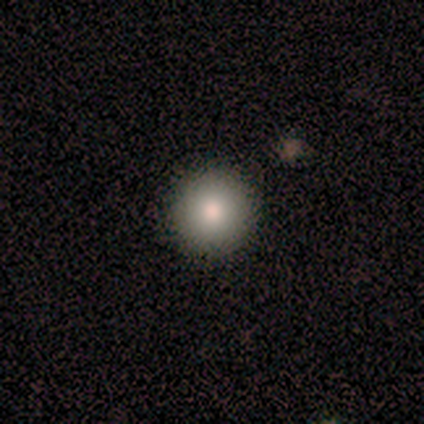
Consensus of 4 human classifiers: smooth 100%, featured or disk 0%, star or artifact 0%. Down the decision tree: how rounded — round (100%); merging — none (75%).